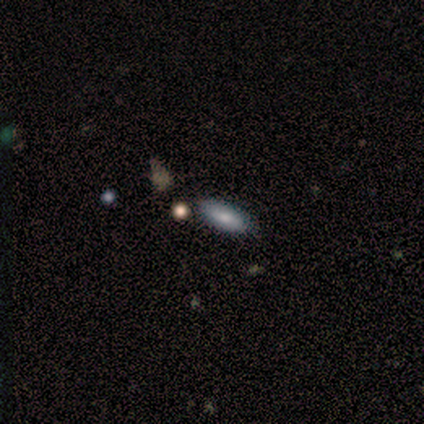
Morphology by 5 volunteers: Smooth or featured? smooth (100%)
How rounded? in between (100%)
Merging? none (100%)